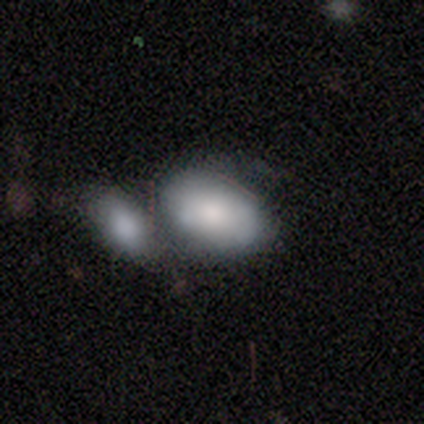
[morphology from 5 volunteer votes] Smooth or featured? smooth (80%)
How rounded? in between (100%)
Merging? none (50%, tied with merger)